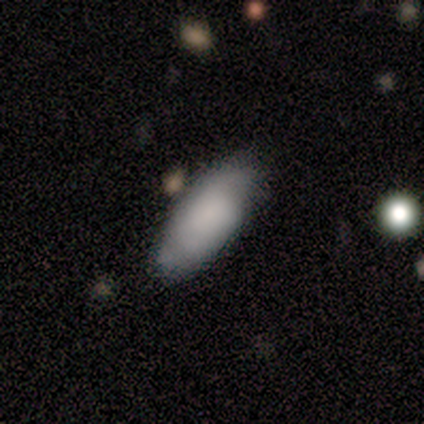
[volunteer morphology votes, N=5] Smooth or featured?
  - smooth: 100% *
  - featured or disk: 0%
  - star or artifact: 0%
How rounded?
  - in between: 100% *
  - round: 0%
  - cigar-shaped: 0%
Merging?
  - none: 80% *
  - minor disturbance: 20%
  - major disturbance: 0%
  - merger: 0%